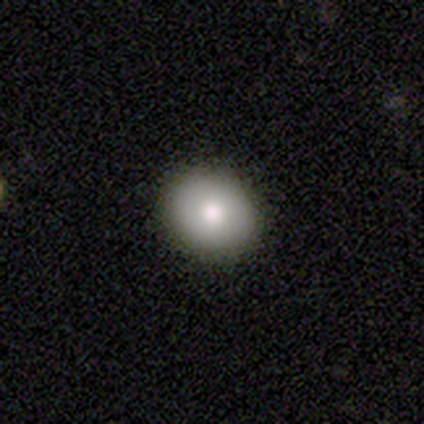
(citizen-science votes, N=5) Q: Smooth or featured?
A: smooth (100%)
Q: How rounded?
A: round (100%)
Q: Merging?
A: none (80%); runner-up: minor disturbance (20%)